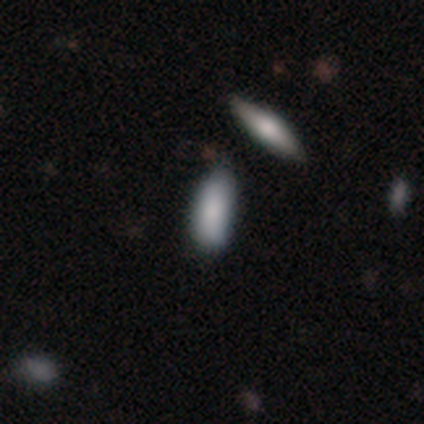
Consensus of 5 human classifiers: Smooth or featured: smooth — 60% (featured or disk — 20%)
How rounded: in between — 67% (cigar-shaped — 33%)
Merging: none — 75% (minor disturbance — 25%)